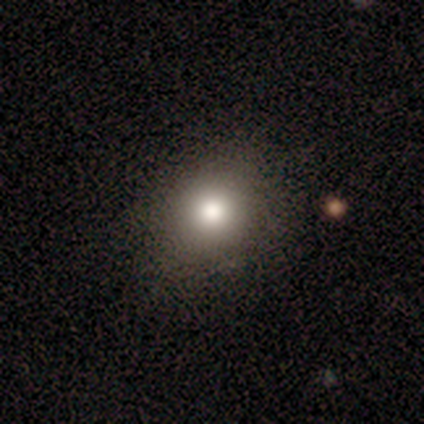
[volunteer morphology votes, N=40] type=smooth (82%); roundness=round (67%); merging=none (77%).